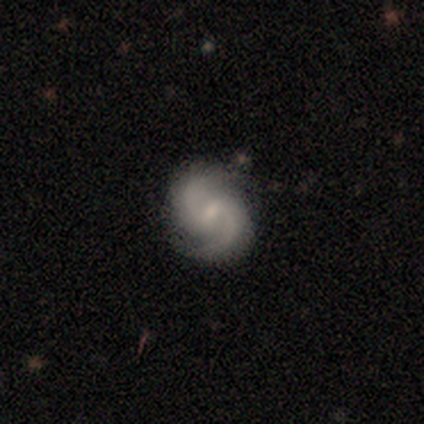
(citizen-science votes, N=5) This appears to be a featured or disk galaxy (100%) with a weak bar (60%), 2 (100%) medium (100%) spiral arms (100%) and a small central bulge (60%). Merging: none (100%).